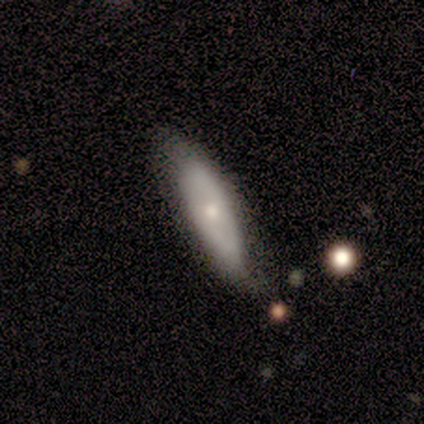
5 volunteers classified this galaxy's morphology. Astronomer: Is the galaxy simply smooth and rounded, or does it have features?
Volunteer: smooth — 60% (runner-up: featured or disk, 40%).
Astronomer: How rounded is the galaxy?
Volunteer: in between — 100%.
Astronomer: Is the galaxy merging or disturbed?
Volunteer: minor disturbance — 80%.